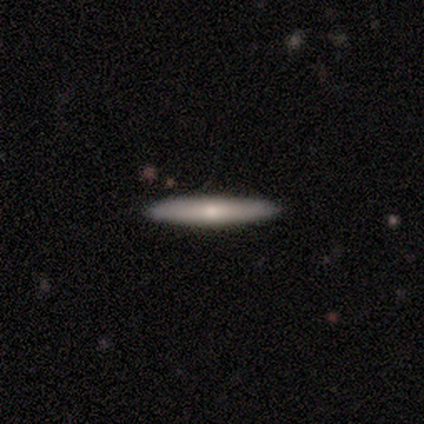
A featured or disk galaxy (80%) viewed edge-on (100%) with a rounded central bulge (100%). Merging: none (100%).